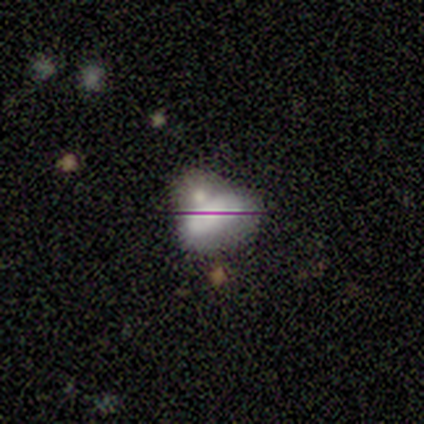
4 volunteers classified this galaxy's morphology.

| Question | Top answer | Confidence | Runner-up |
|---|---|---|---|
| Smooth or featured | smooth | 75% | star or artifact (25%) |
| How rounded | in between | 100% | — |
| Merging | merger | 67% | none (33%) |